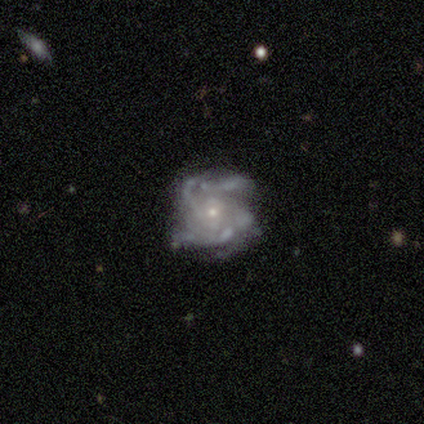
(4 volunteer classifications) This is likely a star or artifact rather than a galaxy (75%).